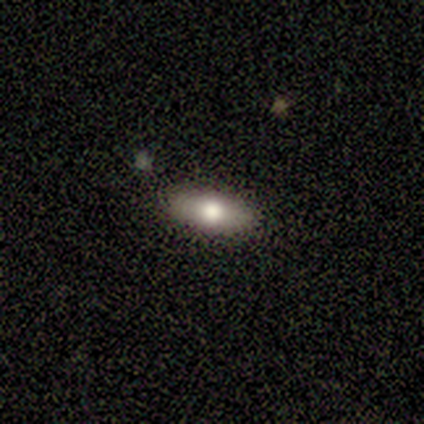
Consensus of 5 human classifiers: Smooth or featured?
  - smooth: 80% *
  - featured or disk: 20%
  - star or artifact: 0%
How rounded?
  - in between: 75% *
  - cigar-shaped: 25%
  - round: 0%
Merging?
  - none: 100% *
  - minor disturbance: 0%
  - major disturbance: 0%
  - merger: 0%